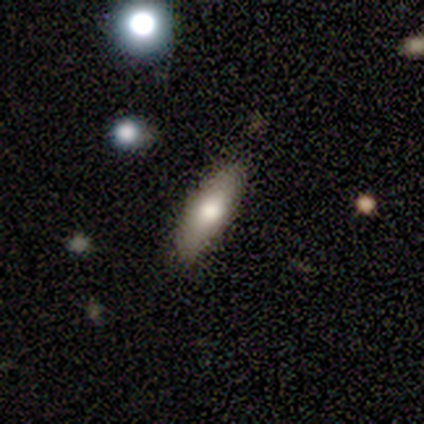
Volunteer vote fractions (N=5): smooth 100%, featured or disk 0%, star or artifact 0%. Down the decision tree: how rounded — cigar-shaped (60%); merging — none (80%).